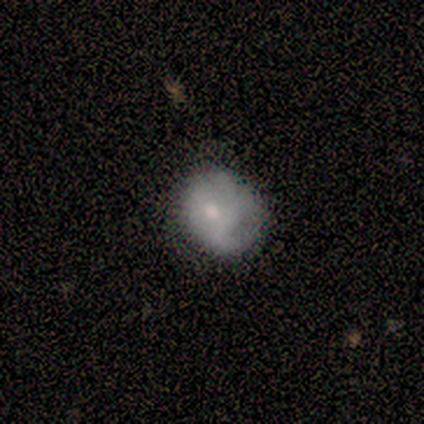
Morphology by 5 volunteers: Volunteers were most divided on "smooth or featured": smooth: 60%, featured or disk: 40%, star or artifact: 0%. More confident: how rounded — round (67%); merging — none (60%).